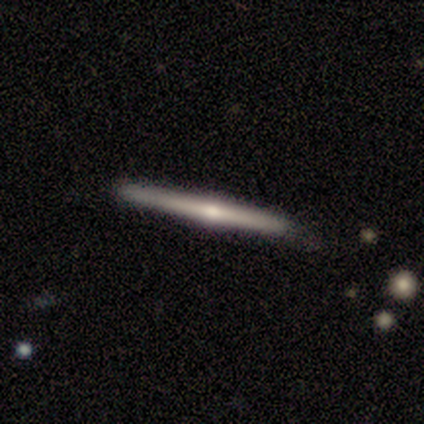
This appears to be a featured or disk galaxy (60%) viewed edge-on (100%) with a rounded central bulge (100%). Merging: none (80%).